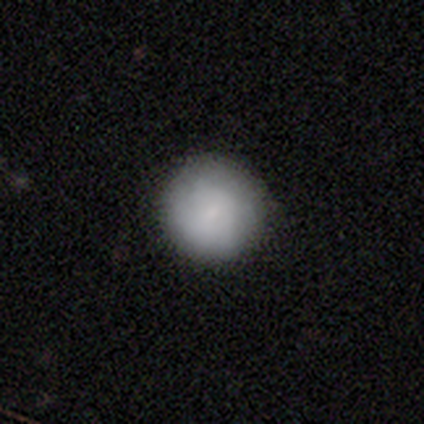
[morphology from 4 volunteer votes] Smooth or featured?
  - smooth: 75% *
  - featured or disk: 25%
  - star or artifact: 0%
How rounded?
  - round: 100% *
  - in between: 0%
  - cigar-shaped: 0%
Merging?
  - none: 75% *
  - minor disturbance: 25%
  - major disturbance: 0%
  - merger: 0%